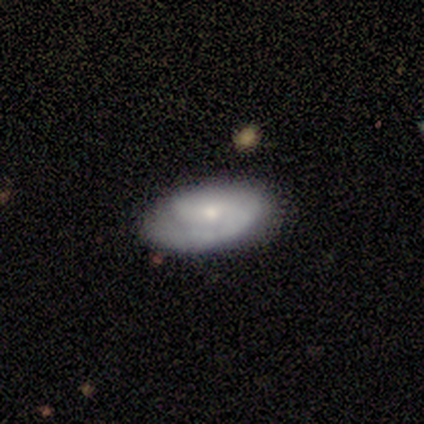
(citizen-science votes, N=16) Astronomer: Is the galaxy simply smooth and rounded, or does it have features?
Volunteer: featured or disk — 69%.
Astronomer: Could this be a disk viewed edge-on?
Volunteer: no — 91%.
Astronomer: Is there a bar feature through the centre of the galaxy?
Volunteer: no — 70%.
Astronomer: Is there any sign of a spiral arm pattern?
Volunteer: yes — 80%.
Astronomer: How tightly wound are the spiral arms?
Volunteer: tight — 50%, tied with medium at 50%.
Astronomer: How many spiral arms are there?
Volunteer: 2 — 38%, tied with can't tell at 38%.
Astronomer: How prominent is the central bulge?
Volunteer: small — 50% (runner-up: moderate, 40%).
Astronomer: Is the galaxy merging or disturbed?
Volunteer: none — 81%.